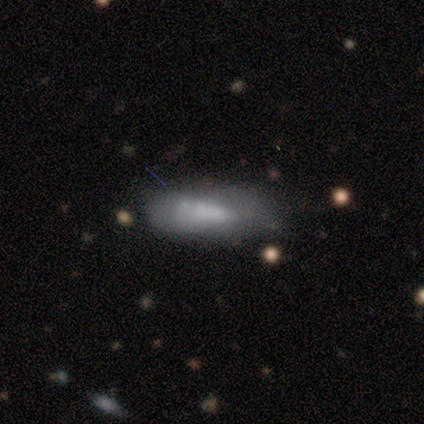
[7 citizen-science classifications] Volunteers were most divided on "how rounded": in between: 67%, cigar-shaped: 33%, round: 0%. More confident: smooth or featured — smooth (86%); merging — none (86%).